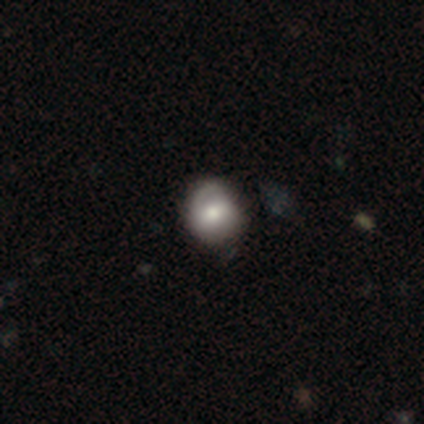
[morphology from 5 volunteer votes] smooth-or-featured: smooth: 60% | featured or disk: 40% | star or artifact: 0%
  how-rounded: round: 100% | in between: 0% | cigar-shaped: 0%
  merging: none: 80% | minor disturbance: 20% | major disturbance: 0% | merger: 0%